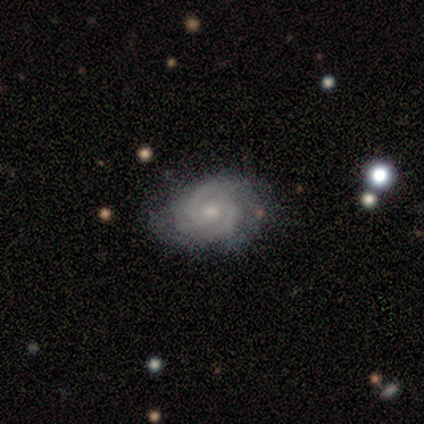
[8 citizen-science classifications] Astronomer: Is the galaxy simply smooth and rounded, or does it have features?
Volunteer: featured or disk — 100%.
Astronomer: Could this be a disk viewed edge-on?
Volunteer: no — 100%.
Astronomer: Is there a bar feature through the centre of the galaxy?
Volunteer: no — 62%.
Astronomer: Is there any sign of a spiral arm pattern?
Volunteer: yes — 100%.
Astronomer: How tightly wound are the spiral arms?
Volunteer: tight — 50%.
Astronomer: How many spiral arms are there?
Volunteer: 2 — 50% (runner-up: 3, 38%).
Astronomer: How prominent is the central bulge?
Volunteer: moderate — 50%, tied with small at 50%.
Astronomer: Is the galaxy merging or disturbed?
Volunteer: none — 75%.